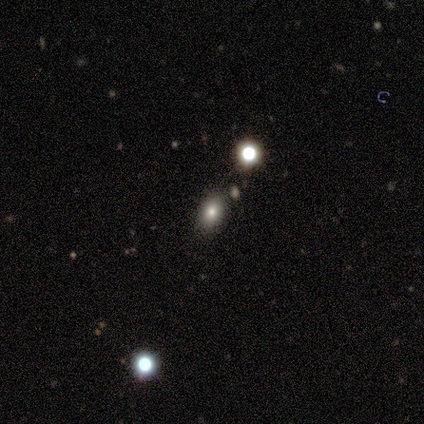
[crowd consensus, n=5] Smooth or featured? 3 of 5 (60%) said smooth. How rounded? 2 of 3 (67%) said round. Merging? 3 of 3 (100%) said none.